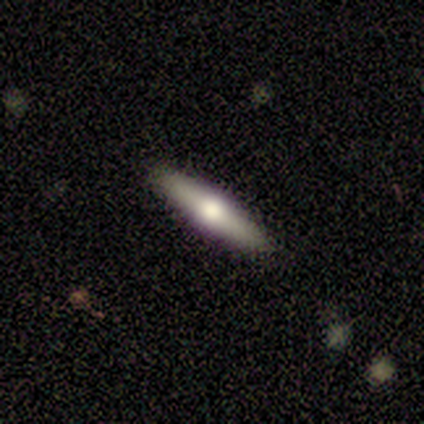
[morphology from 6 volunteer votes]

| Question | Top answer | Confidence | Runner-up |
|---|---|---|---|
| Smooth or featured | featured or disk | 67% | smooth (33%) |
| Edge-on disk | yes | 100% | — |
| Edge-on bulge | rounded | 75% | boxy (25%) |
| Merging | none | 100% | — |